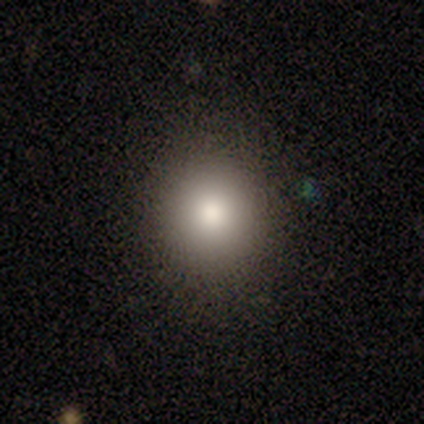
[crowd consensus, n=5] This appears to be a smooth galaxy with no disk features (80%) that is round (100%). Merging: none (100%).